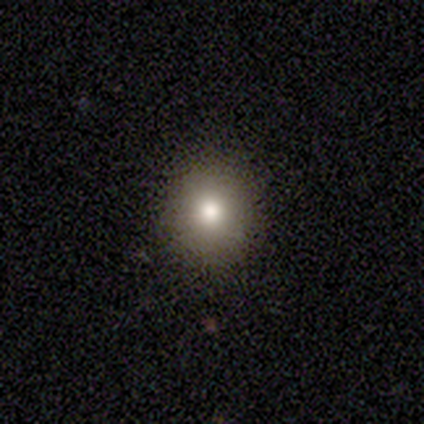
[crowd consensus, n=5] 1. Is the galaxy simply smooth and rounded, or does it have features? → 80% smooth, 20% featured or disk, 0% star or artifact.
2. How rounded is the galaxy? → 100% round, 0% in between, 0% cigar-shaped.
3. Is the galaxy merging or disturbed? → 100% none, 0% minor disturbance, 0% major disturbance, 0% merger.